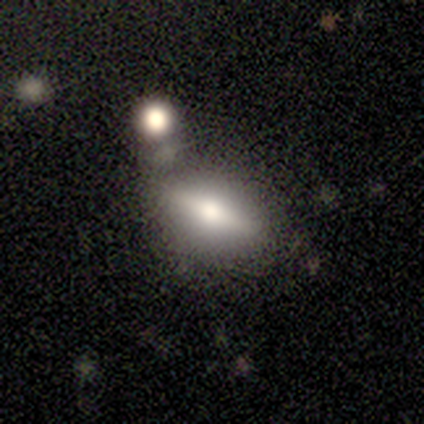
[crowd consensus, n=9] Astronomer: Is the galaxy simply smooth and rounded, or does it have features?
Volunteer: smooth — 44%, tied with featured or disk at 44%.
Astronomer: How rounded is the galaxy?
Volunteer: in between — 100%.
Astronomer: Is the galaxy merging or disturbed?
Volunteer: none — 75%.